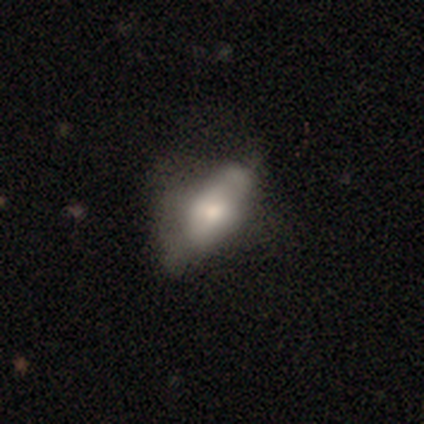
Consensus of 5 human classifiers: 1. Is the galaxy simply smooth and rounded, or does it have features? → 60% featured or disk, 20% smooth, 20% star or artifact.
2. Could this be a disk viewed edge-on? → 100% no, 0% yes.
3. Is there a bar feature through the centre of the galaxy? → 100% no, 0% strong, 0% weak.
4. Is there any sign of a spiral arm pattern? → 100% no, 0% yes.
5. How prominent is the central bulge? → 33% moderate (tied), 33% small (tied), 33% none (tied), 0% dominant, 0% large.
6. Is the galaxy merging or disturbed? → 50% none, 25% minor disturbance, 25% merger, 0% major disturbance.